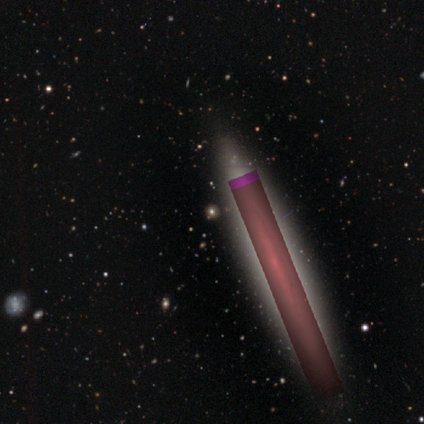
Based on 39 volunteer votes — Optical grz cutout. It shows a star or artifact, not a galaxy (69%).